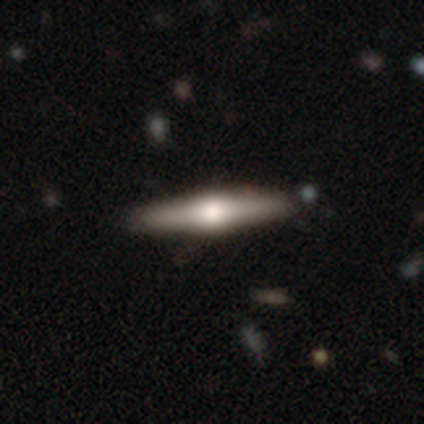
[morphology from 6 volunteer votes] Q: Smooth or featured?
A: featured or disk (83%); runner-up: smooth (17%)
Q: Edge-on disk?
A: yes (80%); runner-up: no (20%)
Q: Edge-on bulge?
A: rounded (100%)
Q: Merging?
A: none (67%); runner-up: major disturbance (17%)